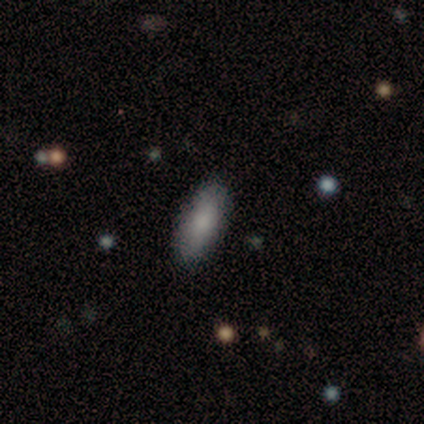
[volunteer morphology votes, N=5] Q: Smooth or featured?
A: smooth (100%)
Q: How rounded?
A: in between (80%); runner-up: cigar-shaped (20%)
Q: Merging?
A: none (100%)